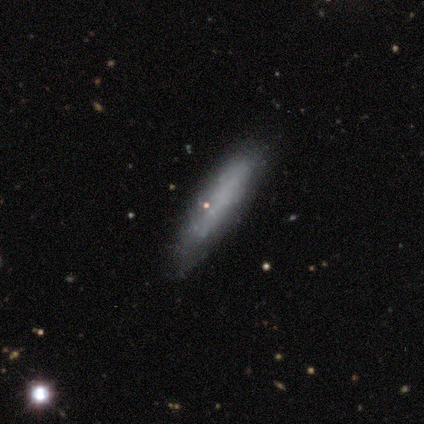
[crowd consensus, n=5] Smooth or featured? 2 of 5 (40%, tied with star or artifact) said smooth. How rounded? 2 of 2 (100%) said cigar-shaped. Merging? 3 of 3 (100%) said none.